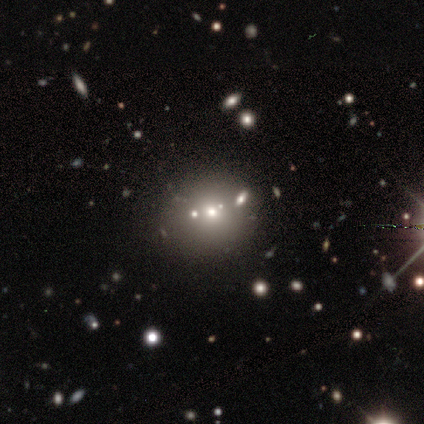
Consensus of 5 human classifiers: Smooth or featured: star or artifact — 60% (smooth — 40%)